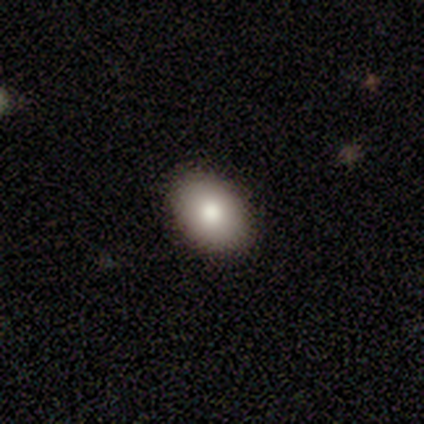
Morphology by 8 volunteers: Q: Smooth or featured?
A: smooth (75%); runner-up: featured or disk (25%)
Q: How rounded?
A: in between (67%); runner-up: round (33%)
Q: Merging?
A: none (100%)